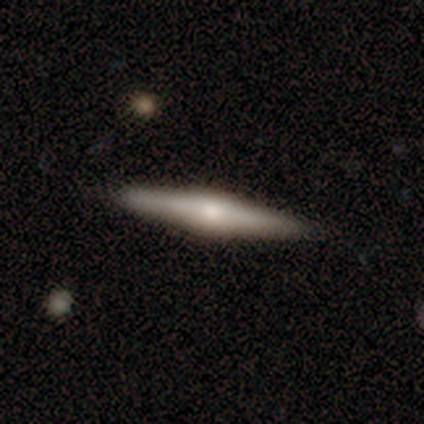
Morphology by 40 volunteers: A featured or disk galaxy (70%) viewed edge-on (93%) with a rounded central bulge (81%). Merging: none (88%).